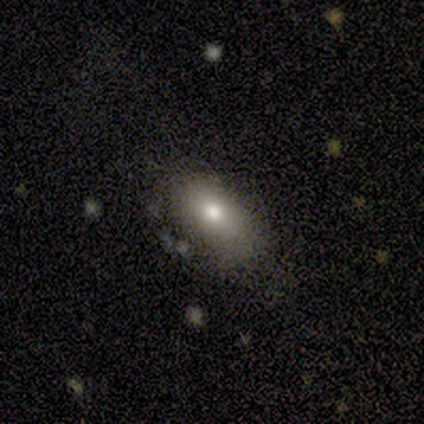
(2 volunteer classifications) Smooth or featured? 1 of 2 (50%, tied with featured or disk) said smooth. How rounded? 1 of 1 (100%) said in between. Merging? 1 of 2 (50%, tied with minor disturbance) said none.